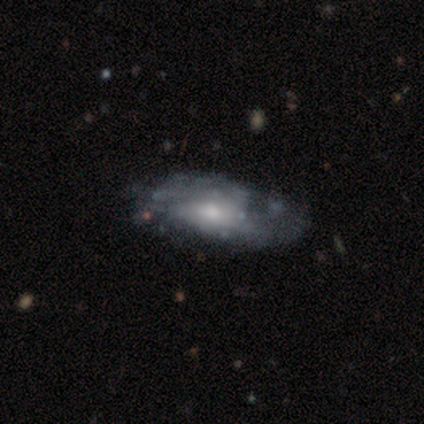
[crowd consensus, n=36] Smooth or featured: featured or disk — 81% (smooth — 14%)
Edge-on disk: no — 100%
Bar: no — 79% (weak — 17%)
Spiral arms: no — 55% (yes — 45%)
Bulge size: moderate — 62% (small — 24%)
Merging: none — 32% (minor disturbance — 29%)